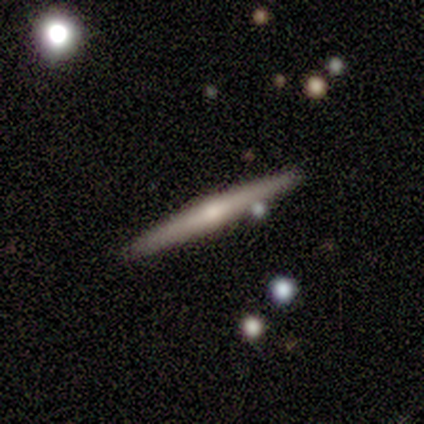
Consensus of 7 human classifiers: Q: Smooth or featured?
A: featured or disk (86%); runner-up: smooth (14%)
Q: Edge-on disk?
A: yes (100%)
Q: Edge-on bulge?
A: rounded (67%); runner-up: none (33%)
Q: Merging?
A: none (100%)